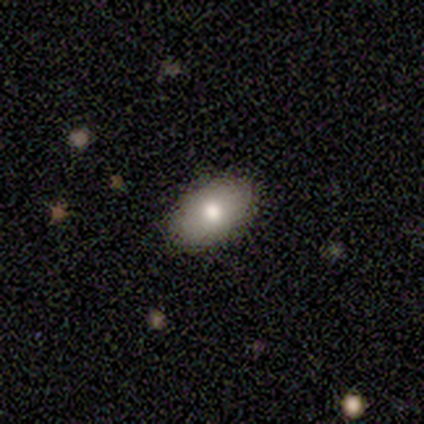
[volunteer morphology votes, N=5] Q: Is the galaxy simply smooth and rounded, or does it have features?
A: smooth — 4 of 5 (80%).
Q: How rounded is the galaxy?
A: in between — 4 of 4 (100%).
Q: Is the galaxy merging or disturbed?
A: none — 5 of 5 (100%).